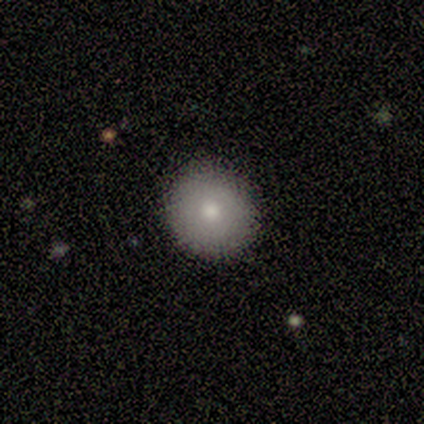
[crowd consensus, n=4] A smooth galaxy with no disk features (100%) that is round (100%). Merging: none (75%).